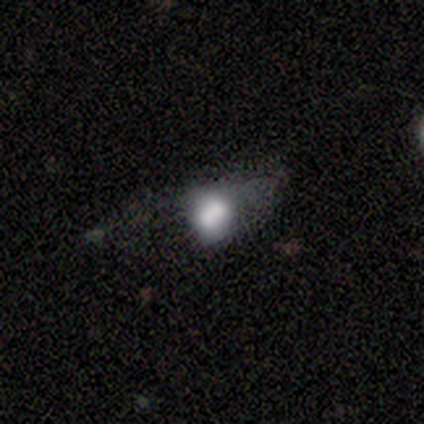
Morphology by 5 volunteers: This appears to be a smooth galaxy with no disk features (40%, tied with featured or disk) that is round (50%, tied with in between). Merging: major disturbance (50%).